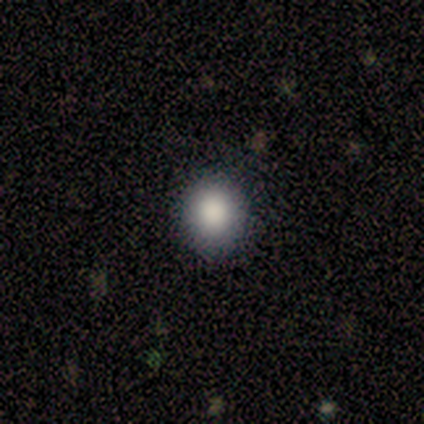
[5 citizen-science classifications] Smooth or featured: smooth — 100%
How rounded: round — 80% (in between — 20%)
Merging: none — 80% (minor disturbance — 20%)